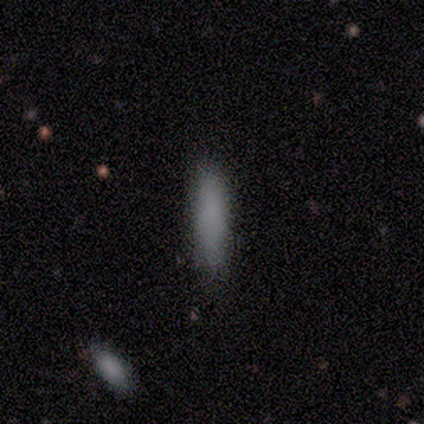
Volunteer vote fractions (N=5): smooth_or_featured: smooth (p=1.00)
how_rounded: cigar-shaped (p=0.60) [alt: in between p=0.40]
merging: none (p=1.00)